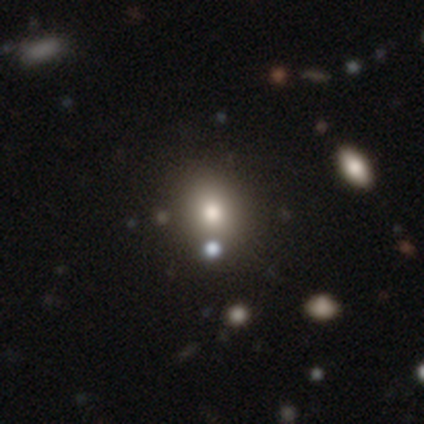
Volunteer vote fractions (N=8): Volunteers were most divided on "how rounded": round: 57%, in between: 43%, cigar-shaped: 0%. More confident: smooth or featured — smooth (88%); merging — none (75%).